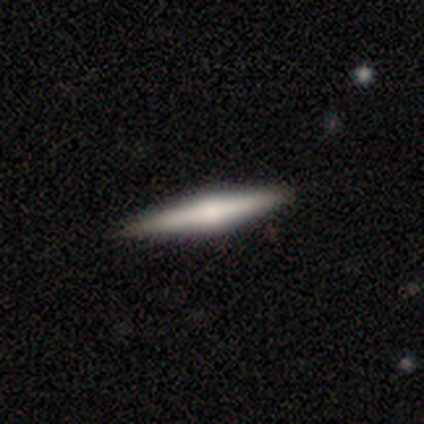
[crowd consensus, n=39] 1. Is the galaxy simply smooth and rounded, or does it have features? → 56% featured or disk, 38% smooth, 5% star or artifact.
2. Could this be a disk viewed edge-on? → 95% yes, 5% no.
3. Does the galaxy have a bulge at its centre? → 86% rounded, 10% none, 5% boxy.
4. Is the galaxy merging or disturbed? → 92% none, 8% minor disturbance, 0% major disturbance, 0% merger.